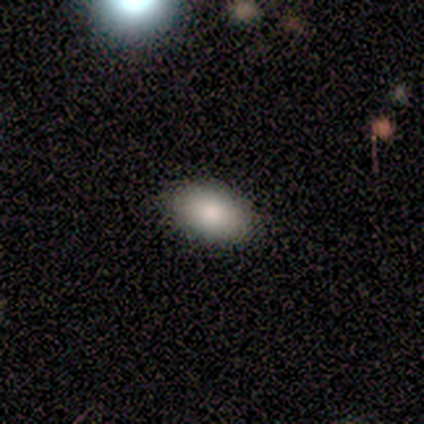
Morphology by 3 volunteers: Smooth or featured?
  - smooth: 100% *
  - featured or disk: 0%
  - star or artifact: 0%
How rounded?
  - in between: 67% *
  - round: 33%
  - cigar-shaped: 0%
Merging?
  - none: 100% *
  - minor disturbance: 0%
  - major disturbance: 0%
  - merger: 0%